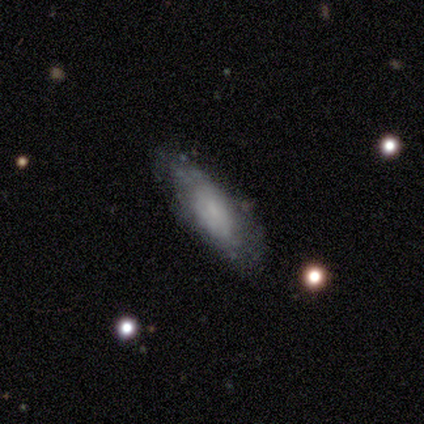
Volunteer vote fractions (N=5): Overall: featured or disk (60%; smooth 20%). Edge-on disk: no (100%). Bar: no (67%; weak 33%). Spiral arms: no (67%; yes 33%). Bulge size: none (67%; moderate 33%). Merging: none (75%).